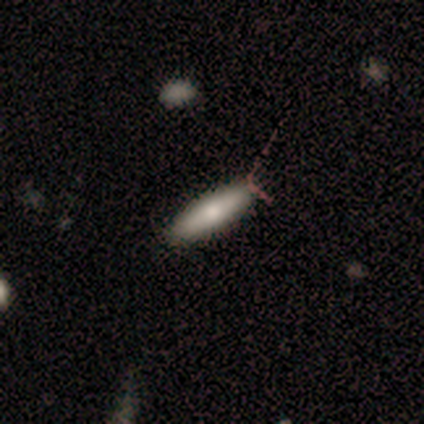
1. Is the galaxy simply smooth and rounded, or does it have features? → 80% smooth, 20% featured or disk, 0% star or artifact.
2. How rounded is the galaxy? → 75% cigar-shaped, 25% round, 0% in between.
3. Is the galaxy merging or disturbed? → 60% none, 20% minor disturbance, 20% major disturbance, 0% merger.